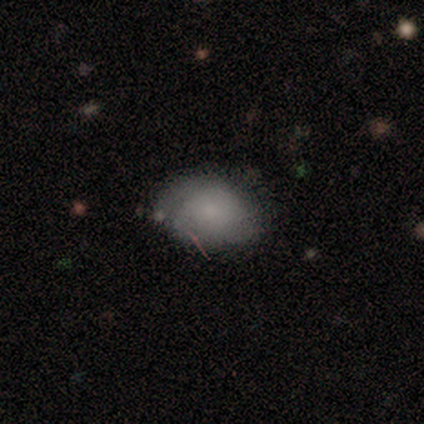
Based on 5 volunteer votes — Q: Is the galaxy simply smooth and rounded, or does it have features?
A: smooth — 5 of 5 (100%).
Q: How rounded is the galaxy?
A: round — 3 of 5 (60%).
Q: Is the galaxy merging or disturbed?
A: none — 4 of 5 (80%).